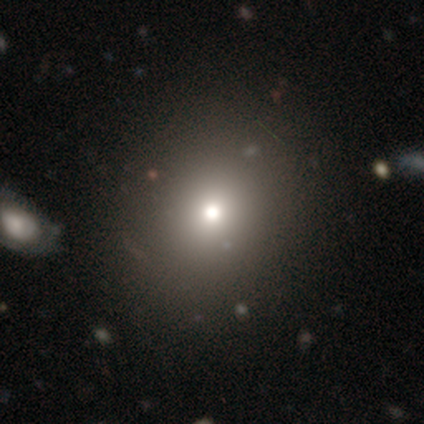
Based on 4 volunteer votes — This is possibly a featured or disk galaxy (50%). It is clearly not viewed edge-on (100%). Bar: clearly no (100%). Spiral arm pattern: clearly no (100%). Central bulge: clearly moderate (100%). Merging: clearly none (100%).